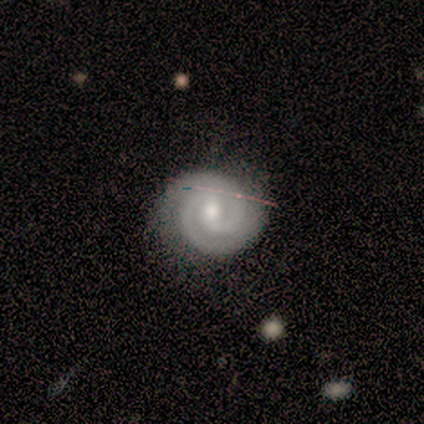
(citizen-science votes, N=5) A featured or disk galaxy (100%) with a weak bar (75%), 2 (100%) tight (75%) spiral arms (100%) and a moderate central bulge (100%).

Vote fractions:
- Smooth or featured? featured or disk: 100% / smooth: 0% / star or artifact: 0%
- Edge-on disk? no: 80% / yes: 20%
- Bar? weak: 75% / no: 25% / strong: 0%
- Spiral arms? yes: 100% / no: 0%
- Spiral winding? tight: 75% / medium: 25% / loose: 0%
- Spiral arm count? 2: 100% / 1: 0% / 3: 0% / 4: 0% / more than 4: 0% / can't tell: 0%
- Bulge size? moderate: 100% / dominant: 0% / large: 0% / small: 0% / none: 0%
- Merging? none: 100% / minor disturbance: 0% / major disturbance: 0% / merger: 0%